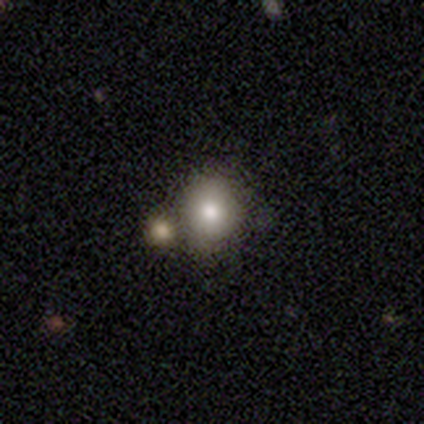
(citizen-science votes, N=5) smooth-or-featured: smooth: 60% | featured or disk: 20% | star or artifact: 20%
  how-rounded: round: 100% | in between: 0% | cigar-shaped: 0%
  merging: none: 50% (tied) | merger: 50% (tied) | minor disturbance: 0% | major disturbance: 0%